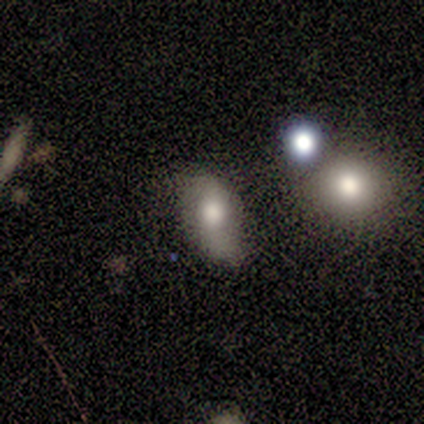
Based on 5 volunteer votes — Smooth or featured? 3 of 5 (60%) said featured or disk. Edge-on disk? 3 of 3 (100%) said no. Bar? 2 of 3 (67%) said no. Spiral arms? 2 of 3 (67%) said yes. Spiral winding? 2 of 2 (100%) said loose. Spiral arm count? 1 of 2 (50%, tied with can't tell) said 2. Bulge size? 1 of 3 (33%, tied with small and none) said large. Merging? 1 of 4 (25%, tied with minor disturbance, major disturbance and merger) said none.